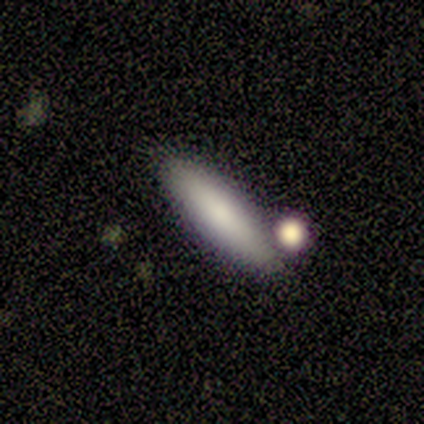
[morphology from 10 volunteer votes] Smooth or featured: smooth — 100%
How rounded: cigar-shaped — 60% (in between — 40%)
Merging: none — 80% (minor disturbance — 10%)